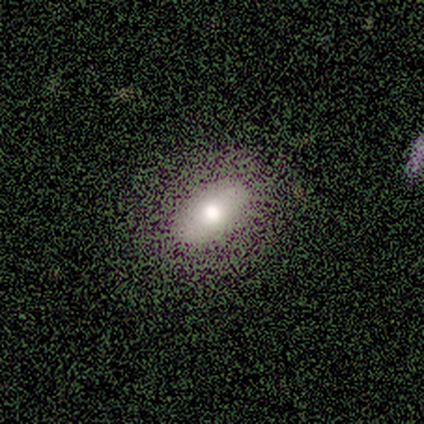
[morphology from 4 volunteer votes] Volunteers were most divided on "how rounded": in between: 67%, round: 33%, cigar-shaped: 0%. More confident: smooth or featured — smooth (75%); merging — minor disturbance (67%).